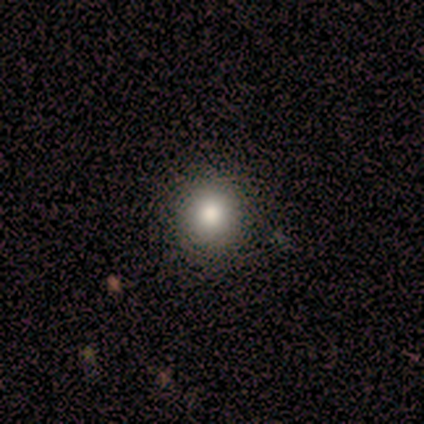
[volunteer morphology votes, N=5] type=featured or disk (60%); edge-on=no (67%); bar=no (100%); spiral arms=no (100%); bulge=moderate (100%); merging=none (100%).